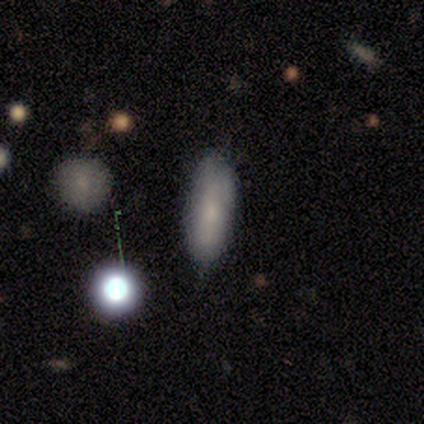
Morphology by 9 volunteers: Q: Smooth or featured?
A: smooth (67%); runner-up: featured or disk (22%)
Q: How rounded?
A: in between (83%); runner-up: cigar-shaped (17%)
Q: Merging?
A: none (75%); runner-up: minor disturbance (25%)